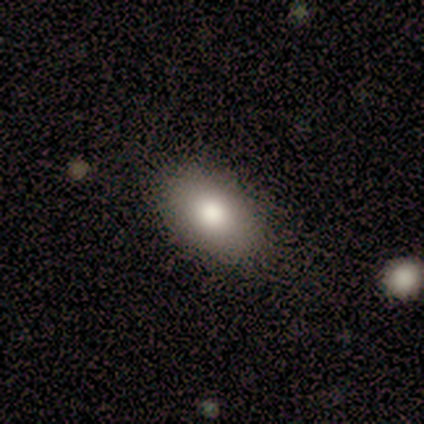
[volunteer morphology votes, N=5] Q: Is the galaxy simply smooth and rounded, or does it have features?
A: smooth — 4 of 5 (80%).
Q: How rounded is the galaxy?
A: in between — 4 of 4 (100%).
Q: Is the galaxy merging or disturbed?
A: none — 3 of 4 (75%).